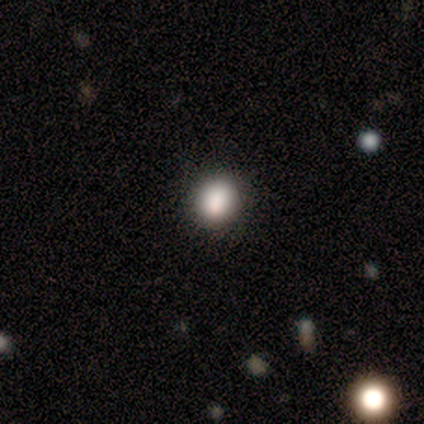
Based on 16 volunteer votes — Volunteers were most divided on "smooth or featured": smooth: 75%, star or artifact: 25%, featured or disk: 0%. More confident: how rounded — round (92%); merging — none (92%).